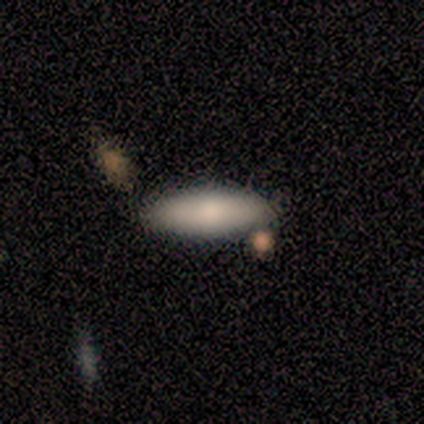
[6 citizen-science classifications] Morphology: type=smooth (67%); roundness=in between (75%); merging=none (67%).